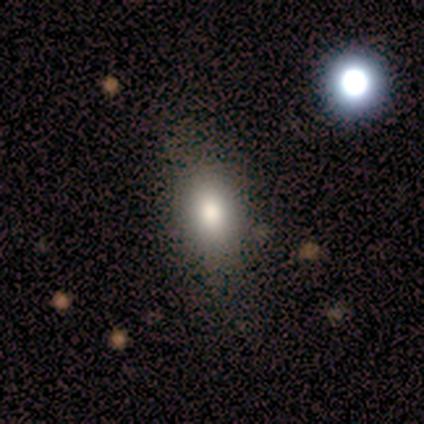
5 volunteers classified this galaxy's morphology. Smooth or featured? 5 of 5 (100%) said smooth. How rounded? 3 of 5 (60%) said in between. Merging? 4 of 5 (80%) said none.